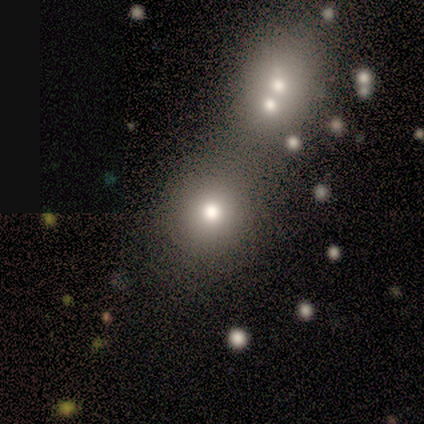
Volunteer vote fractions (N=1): A smooth galaxy with no disk features (100%) that is round (100%).

Vote fractions:
- Smooth or featured? smooth: 100% / featured or disk: 0% / star or artifact: 0%
- How rounded? round: 100% / in between: 0% / cigar-shaped: 0%
- Merging? none: 100% / minor disturbance: 0% / major disturbance: 0% / merger: 0%